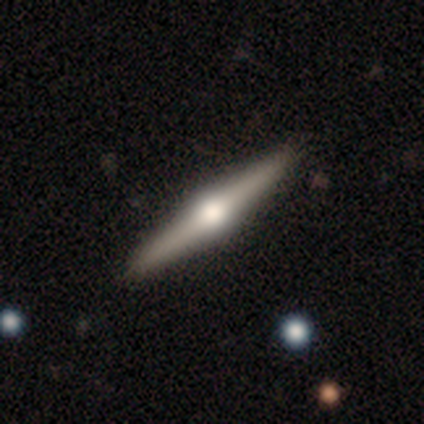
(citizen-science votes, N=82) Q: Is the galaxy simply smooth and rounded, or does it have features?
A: featured or disk — 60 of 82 (73%).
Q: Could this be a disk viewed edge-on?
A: yes — 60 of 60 (100%).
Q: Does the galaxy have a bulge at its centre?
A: rounded — 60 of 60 (100%).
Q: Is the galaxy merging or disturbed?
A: none — 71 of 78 (91%).